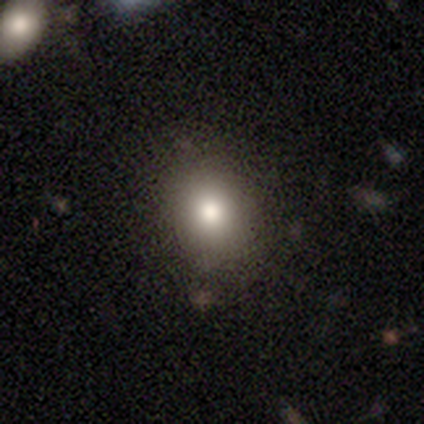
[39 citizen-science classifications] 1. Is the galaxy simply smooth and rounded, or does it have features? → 82% smooth, 13% star or artifact, 5% featured or disk.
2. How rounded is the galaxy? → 62% round, 38% in between, 0% cigar-shaped.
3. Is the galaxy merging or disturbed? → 53% none, 9% minor disturbance, 0% major disturbance, 0% merger.